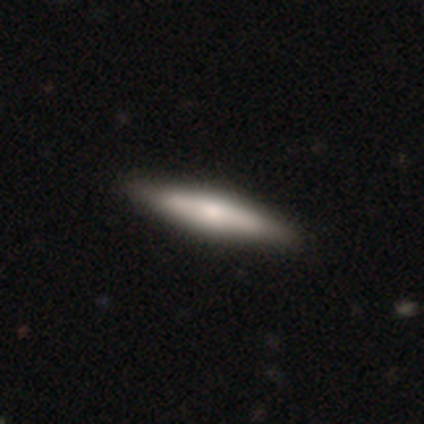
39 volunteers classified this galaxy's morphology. A smooth galaxy with no disk features (51%) that is cigar-shaped (75%).

Vote fractions:
- Smooth or featured? smooth: 51% / featured or disk: 49% / star or artifact: 0%
- How rounded? cigar-shaped: 75% / in between: 25% / round: 0%
- Merging? none: 82% / minor disturbance: 3% / merger: 3% / major disturbance: 0%